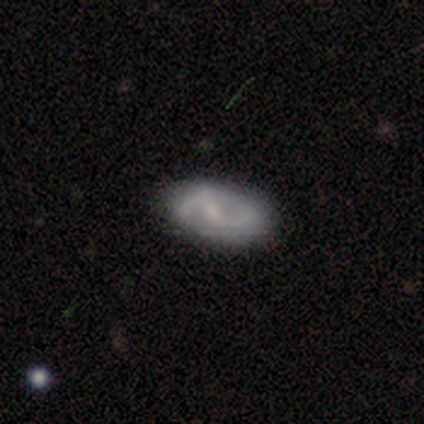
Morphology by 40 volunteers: Q: Smooth or featured?
A: featured or disk (75%); runner-up: smooth (22%)
Q: Edge-on disk?
A: no (100%)
Q: Bar?
A: weak (40%); runner-up: no (37%)
Q: Spiral arms?
A: yes (73%); runner-up: no (27%)
Q: Spiral winding?
A: loose (45%); runner-up: medium (36%)
Q: Spiral arm count?
A: 2 (82%); runner-up: 1 (9%)
Q: Bulge size?
A: small (53%); runner-up: none (37%)
Q: Merging?
A: none (51%); runner-up: merger (8%)